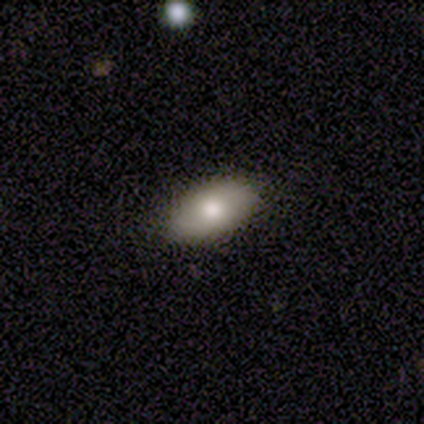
smooth_or_featured: smooth (p=0.78) [alt: featured or disk p=0.12]
how_rounded: in between (p=0.97) [alt: round p=0.03]
merging: none (p=0.94) [alt: minor disturbance p=0.06]